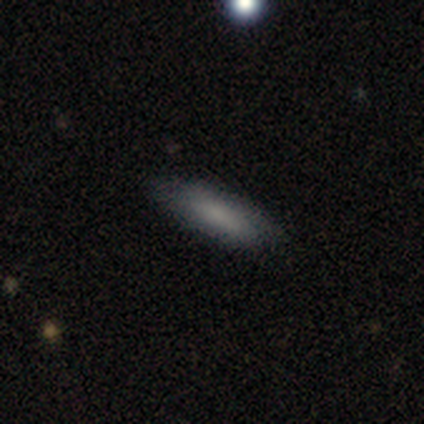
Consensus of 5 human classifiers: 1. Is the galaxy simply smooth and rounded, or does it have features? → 80% smooth, 20% featured or disk, 0% star or artifact.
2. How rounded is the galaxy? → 75% in between, 25% cigar-shaped, 0% round.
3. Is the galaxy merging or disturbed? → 80% none, 20% minor disturbance, 0% major disturbance, 0% merger.